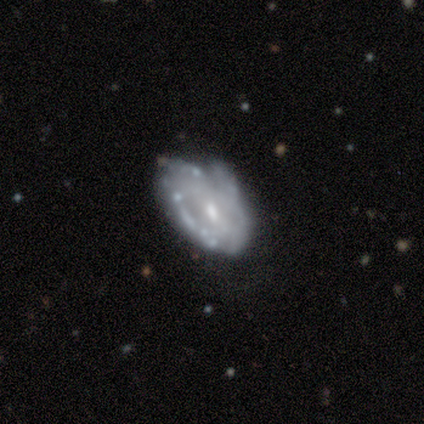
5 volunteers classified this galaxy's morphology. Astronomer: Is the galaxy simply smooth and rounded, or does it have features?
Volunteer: featured or disk — 100%.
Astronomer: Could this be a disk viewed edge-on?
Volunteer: no — 100%.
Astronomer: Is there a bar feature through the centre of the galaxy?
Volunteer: no — 60% (runner-up: weak, 40%).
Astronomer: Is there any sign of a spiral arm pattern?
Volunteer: no — 80%.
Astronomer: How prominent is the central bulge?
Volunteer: small — 60% (runner-up: moderate, 40%).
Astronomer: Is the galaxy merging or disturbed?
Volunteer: minor disturbance — 40% (runner-up: none, 20%).